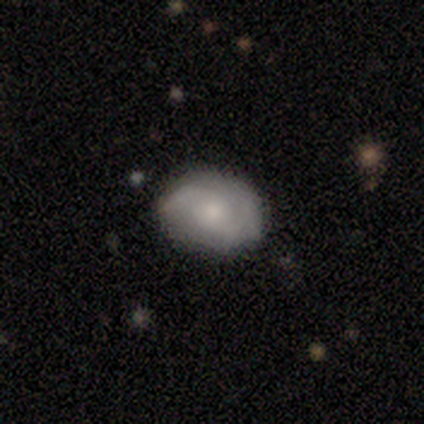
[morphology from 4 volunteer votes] Volunteers were most divided on "merging" (2-way tie): none: 50%, minor disturbance: 50%, major disturbance: 0%, merger: 0%. More confident: smooth or featured — featured or disk (100%); edge-on disk — no (100%); spiral arms — yes (100%); spiral arm count — 2 (100%); bar — no (75%); spiral winding — medium (75%); bulge size — moderate (75%).